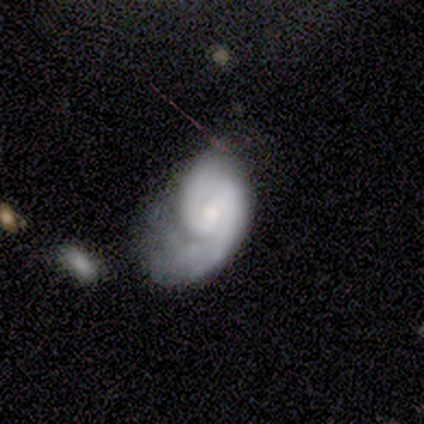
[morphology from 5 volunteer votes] smooth-or-featured: featured or disk: 80% | smooth: 20% | star or artifact: 0%
  disk-edge-on: no: 100% | yes: 0%
    bar: weak: 50% (tied) | no: 50% (tied) | strong: 0%
    has-spiral-arms: yes: 75% | no: 25%
      spiral-winding: medium: 67% | tight: 33% | loose: 0%
      spiral-arm-count: 2: 67% | 3: 33% | 1: 0% | 4: 0% | more than 4: 0% | can't tell: 0%
    bulge-size: large: 25% (tied) | moderate: 25% (tied) | small: 25% (tied) | none: 25% (tied) | dominant: 0%
  merging: major disturbance: 60% | minor disturbance: 20% | merger: 20% | none: 0%